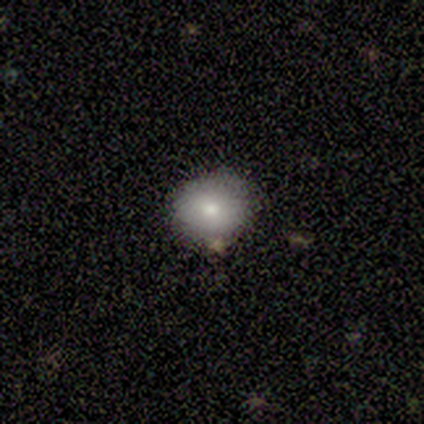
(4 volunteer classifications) smooth_or_featured: smooth (p=0.75) [alt: featured or disk p=0.25]
how_rounded: round (p=0.67) [alt: in between p=0.33]
merging: none (p=0.75) [alt: minor disturbance p=0.25]